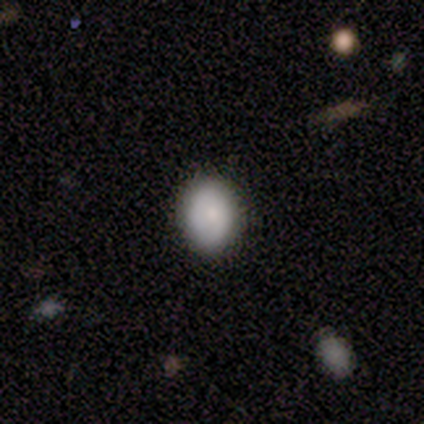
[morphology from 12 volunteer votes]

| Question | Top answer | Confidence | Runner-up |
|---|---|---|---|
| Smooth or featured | smooth | 92% | featured or disk (8%) |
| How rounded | in between | 82% | round (18%) |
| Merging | none | 100% | — |